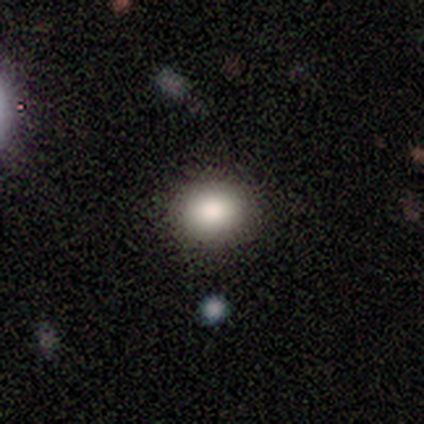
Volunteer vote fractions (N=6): Q: Smooth or featured?
A: smooth (100%)
Q: How rounded?
A: round (83%); runner-up: in between (17%)
Q: Merging?
A: none (83%); runner-up: major disturbance (17%)